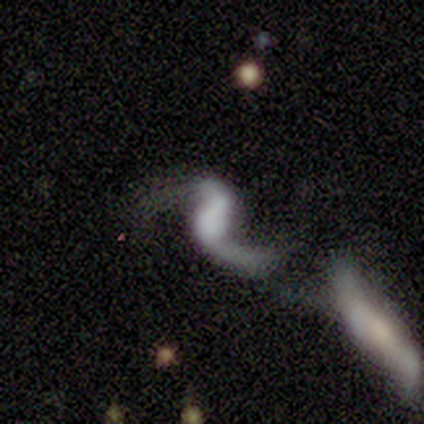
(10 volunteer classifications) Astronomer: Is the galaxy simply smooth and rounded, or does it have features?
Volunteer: featured or disk — 90%.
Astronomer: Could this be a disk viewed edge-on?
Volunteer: no — 100%.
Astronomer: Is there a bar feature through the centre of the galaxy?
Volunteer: weak — 56% (runner-up: no, 33%).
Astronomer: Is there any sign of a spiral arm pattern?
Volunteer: yes — 100%.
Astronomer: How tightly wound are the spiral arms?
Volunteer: loose — 89%.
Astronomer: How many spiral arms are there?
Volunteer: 2 — 89%.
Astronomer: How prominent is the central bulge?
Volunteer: none — 44% (runner-up: moderate, 33%).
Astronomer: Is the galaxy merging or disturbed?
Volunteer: none — 56%.